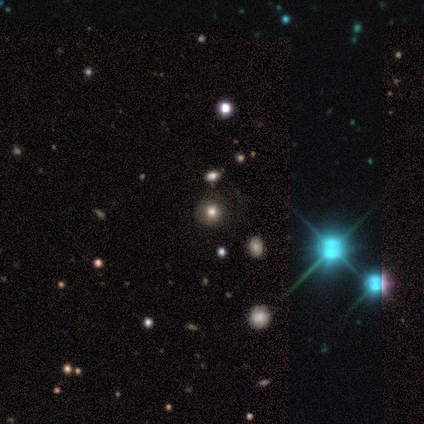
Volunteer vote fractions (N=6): This appears to be a smooth galaxy with no disk features (50%, tied with star or artifact) that is round (100%). Merging: none (100%).